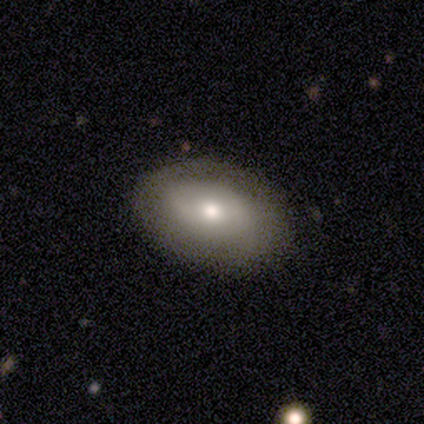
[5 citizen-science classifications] Overall: smooth (60%; featured or disk 40%). How rounded: in between (67%; round 33%). Merging: none (100%).